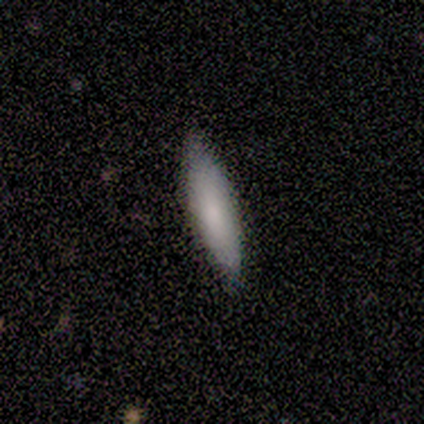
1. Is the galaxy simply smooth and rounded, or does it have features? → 100% smooth, 0% featured or disk, 0% star or artifact.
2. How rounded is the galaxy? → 60% cigar-shaped, 40% in between, 0% round.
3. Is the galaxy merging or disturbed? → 60% none, 40% minor disturbance, 0% major disturbance, 0% merger.